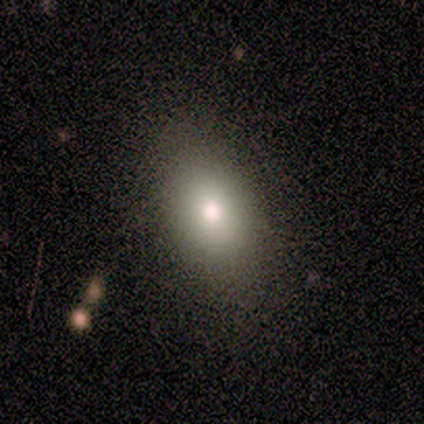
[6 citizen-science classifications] A smooth galaxy with no disk features (100%) that is in between round and cigar-shaped (100%). Merging: none (100%).